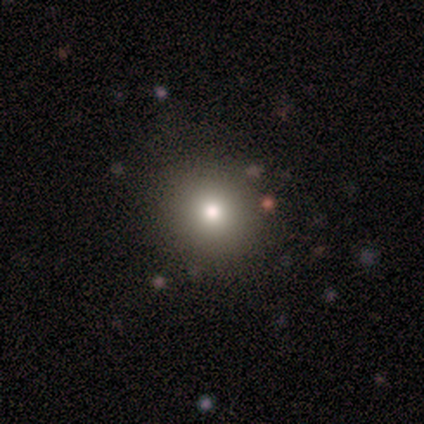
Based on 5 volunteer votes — This is likely a smooth galaxy (60%). How rounded: clearly round (100%). Merging: clearly none (100%).